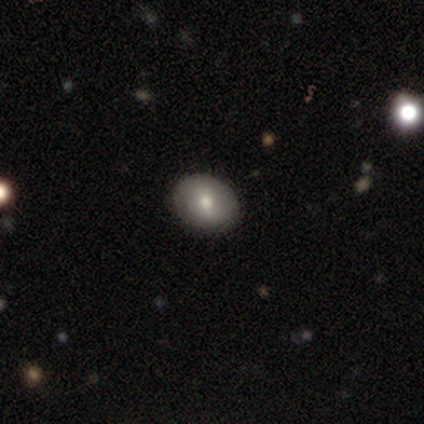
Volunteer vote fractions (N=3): Morphology: type=smooth (67%); roundness=in between (100%); merging=none (67%).